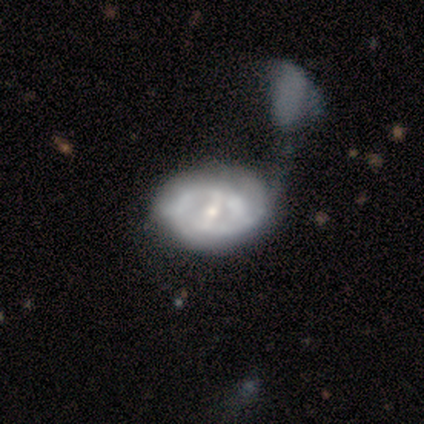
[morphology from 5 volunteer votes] Volunteers were most divided on "bar" (3-way tie): strong: 33%, weak: 33%, no: 33%. More confident: edge-on disk — no (100%); spiral arms — yes (100%); spiral arm count — 2 (100%); spiral winding — tight (67%); bulge size — moderate (67%); smooth or featured — featured or disk (60%); merging — major disturbance (50%).